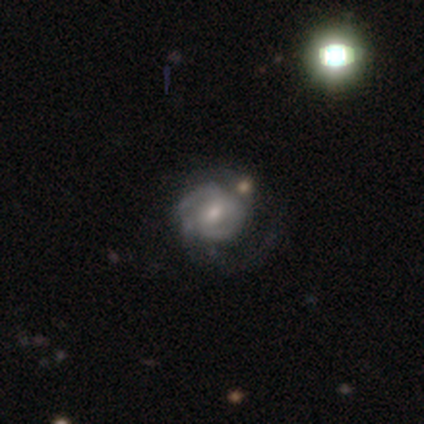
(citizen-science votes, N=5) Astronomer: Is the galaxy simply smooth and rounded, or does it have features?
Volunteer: featured or disk — 100%.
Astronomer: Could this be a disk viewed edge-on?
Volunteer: no — 100%.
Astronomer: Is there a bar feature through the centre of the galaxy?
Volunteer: no — 60% (runner-up: weak, 40%).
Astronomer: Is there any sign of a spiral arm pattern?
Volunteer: yes — 80%.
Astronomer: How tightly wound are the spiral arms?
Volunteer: tight — 50%, tied with medium at 50%.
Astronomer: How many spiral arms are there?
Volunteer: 3 — 75%.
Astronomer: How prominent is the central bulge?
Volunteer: moderate — 60% (runner-up: small, 40%).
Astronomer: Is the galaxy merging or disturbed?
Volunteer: none — 80%.